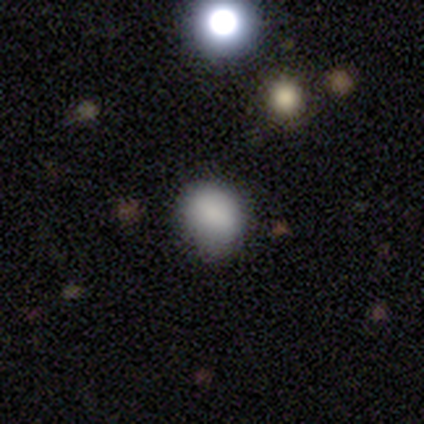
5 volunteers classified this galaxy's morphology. Smooth or featured: smooth — 80% (featured or disk — 20%)
How rounded: in between — 75% (round — 25%)
Merging: minor disturbance — 80% (none — 20%)